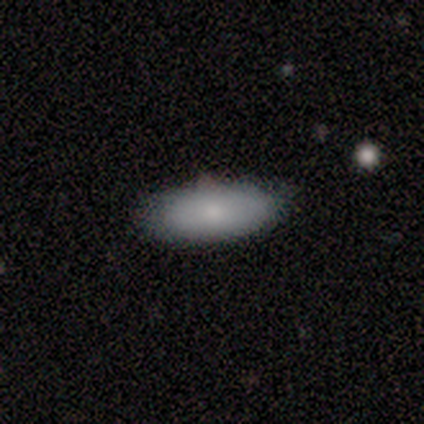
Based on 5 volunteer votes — Morphology: type=smooth (100%); roundness=in between (60%); merging=none (60%).